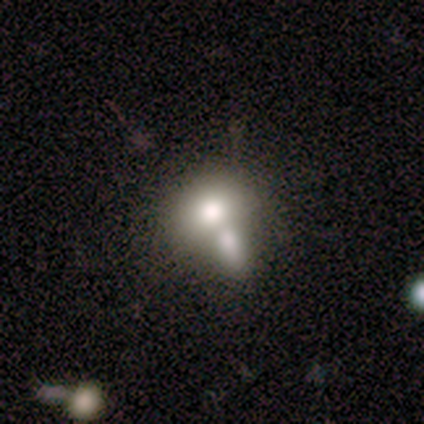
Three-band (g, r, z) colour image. It shows a smooth galaxy with no disk features (40%, tied with star or artifact) that is round (50%, tied with in between). Merging: merger (67%).